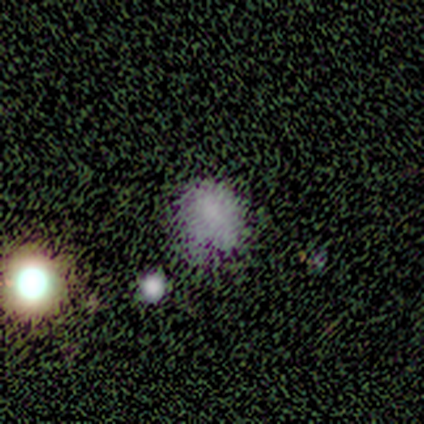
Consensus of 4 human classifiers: smooth_or_featured: star or artifact (p=0.50) [alt: smooth p=0.25]